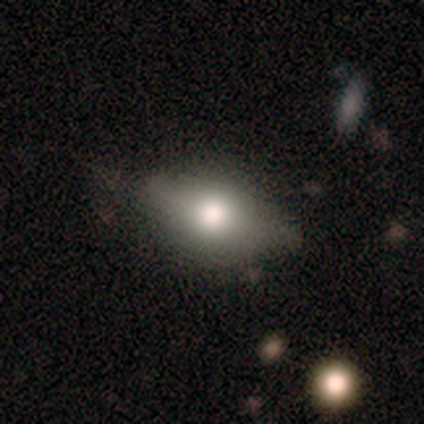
Smooth or featured? smooth (100%)
How rounded? in between (67%)
Merging? none (50%)